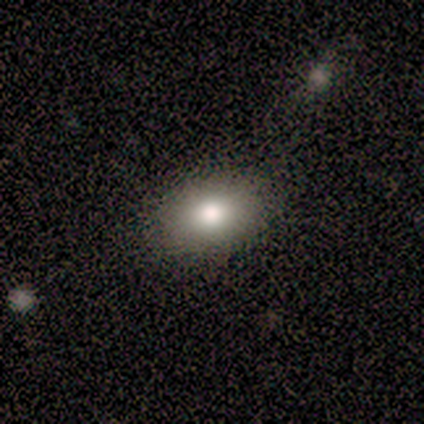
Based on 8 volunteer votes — Smooth or featured? smooth (88%)
How rounded? in between (71%)
Merging? none (75%)